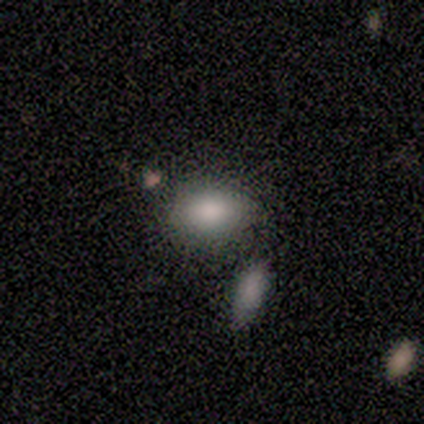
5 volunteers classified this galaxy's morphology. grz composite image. It shows a smooth galaxy with no disk features (60%) that is in between round and cigar-shaped (100%). Merging: none (100%).